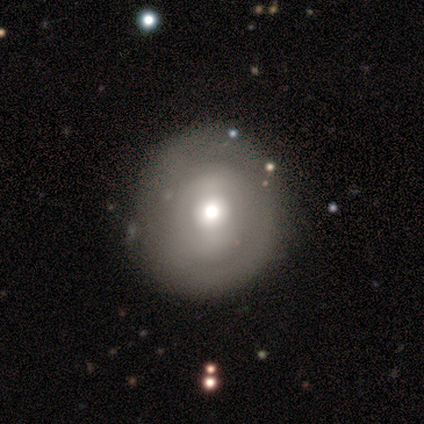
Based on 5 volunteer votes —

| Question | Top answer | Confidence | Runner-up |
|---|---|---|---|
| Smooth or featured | smooth | 100% | — |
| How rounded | round | 100% | — |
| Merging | none | 40% | tied: minor disturbance (40%) |